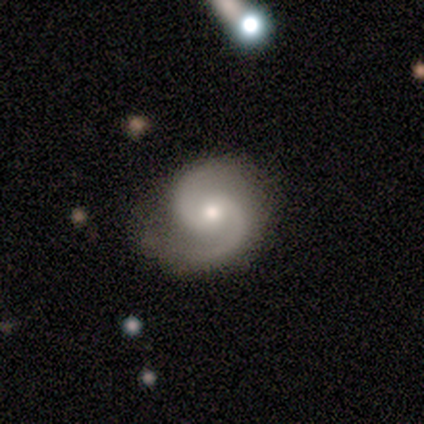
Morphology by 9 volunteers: featured or disk 89%, smooth 11%, star or artifact 0%. Down the decision tree: edge-on disk — no (88%); bar — no (57%); spiral arms — yes (100%); spiral arm count — 2 (100%); spiral winding — medium (71%); bulge size — small (71%); merging — none (67%).